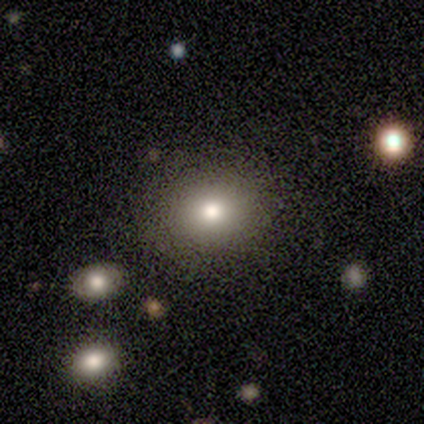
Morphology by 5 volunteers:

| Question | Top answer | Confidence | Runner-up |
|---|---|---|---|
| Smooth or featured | smooth | 80% | star or artifact (20%) |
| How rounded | round | 75% | in between (25%) |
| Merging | none | 50% | tied: minor disturbance (50%) |